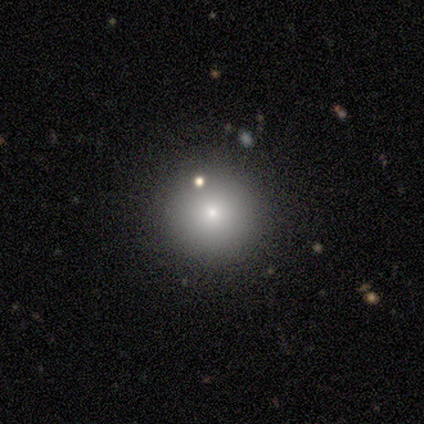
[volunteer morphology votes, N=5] This is marginally a smooth galaxy (40%, tied with featured or disk). How rounded: clearly round (100%). Merging: clearly none (100%).